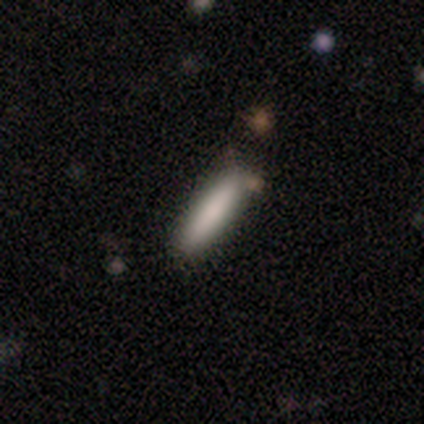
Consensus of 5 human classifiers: Volunteers were most divided on "merging": none: 80%, minor disturbance: 20%, major disturbance: 0%, merger: 0%. More confident: smooth or featured — smooth (100%); how rounded — cigar-shaped (100%).